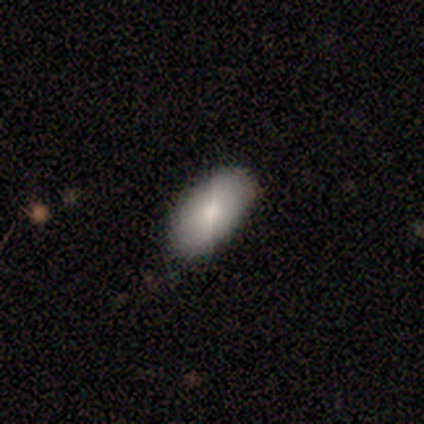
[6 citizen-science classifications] Smooth or featured: smooth — 67% (featured or disk — 33%)
How rounded: in between — 100%
Merging: none — 100%